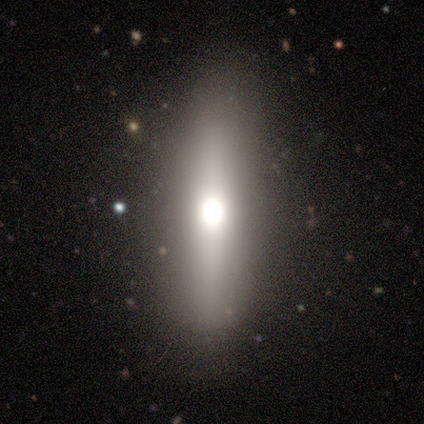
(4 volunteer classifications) This is clearly a featured or disk galaxy (100%). It is likely viewed edge-on (75%). Edge-on bulge: clearly rounded (100%). Merging: likely none (75%).